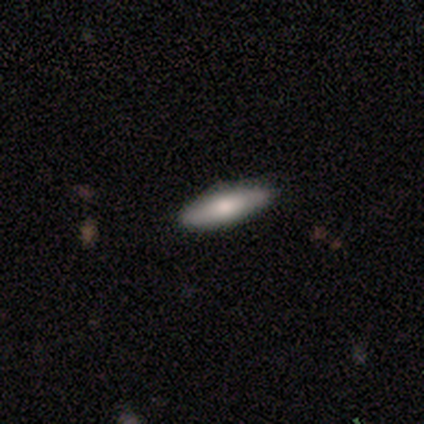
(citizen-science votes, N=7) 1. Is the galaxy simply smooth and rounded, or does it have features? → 71% smooth, 29% featured or disk, 0% star or artifact.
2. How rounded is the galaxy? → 80% in between, 20% cigar-shaped, 0% round.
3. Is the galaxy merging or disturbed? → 71% none, 14% minor disturbance, 14% major disturbance, 0% merger.